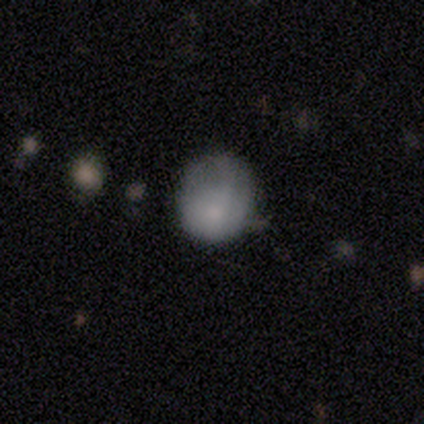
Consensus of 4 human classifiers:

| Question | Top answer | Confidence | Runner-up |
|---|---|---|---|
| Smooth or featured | smooth | 75% | featured or disk (25%) |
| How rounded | round | 100% | — |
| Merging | none | 50% | tied: minor disturbance (50%) |